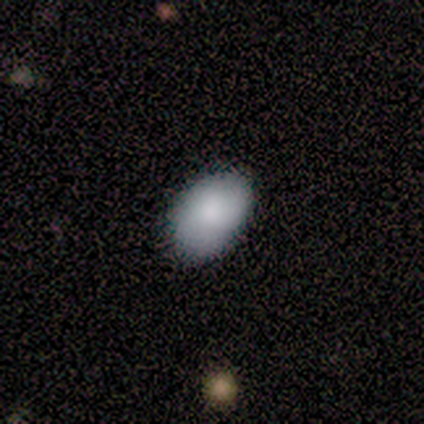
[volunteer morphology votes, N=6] A smooth galaxy with no disk features (67%) that is in between round and cigar-shaped (100%).

Vote fractions:
- Smooth or featured? smooth: 67% / featured or disk: 17% / star or artifact: 17%
- How rounded? in between: 100% / round: 0% / cigar-shaped: 0%
- Merging? none: 60% / minor disturbance: 20% / merger: 20% / major disturbance: 0%